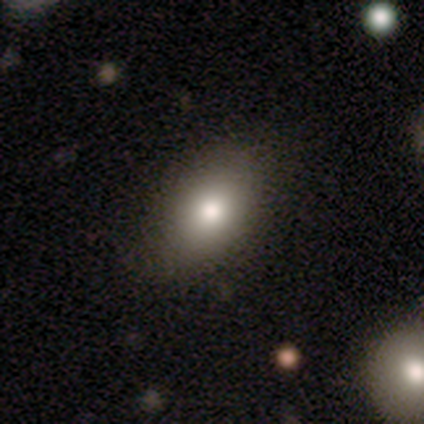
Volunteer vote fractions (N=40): This is clearly a smooth galaxy (90%). How rounded: clearly in between (86%). Merging: likely none (62%).